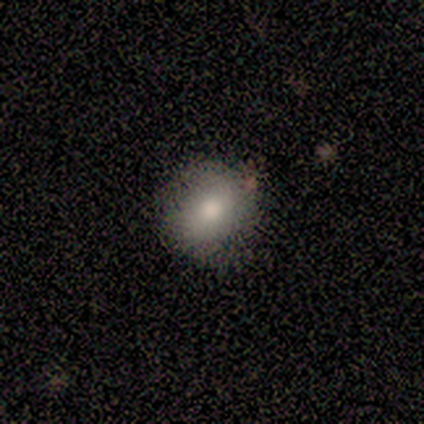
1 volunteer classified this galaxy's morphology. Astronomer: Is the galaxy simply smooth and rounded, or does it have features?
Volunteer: featured or disk — 100%.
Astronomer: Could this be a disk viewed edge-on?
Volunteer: no — 100%.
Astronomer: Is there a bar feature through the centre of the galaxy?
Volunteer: no — 100%.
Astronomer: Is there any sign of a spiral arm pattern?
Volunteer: no — 100%.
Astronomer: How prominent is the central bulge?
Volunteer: small — 100%.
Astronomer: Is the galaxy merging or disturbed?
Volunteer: none — 100%.